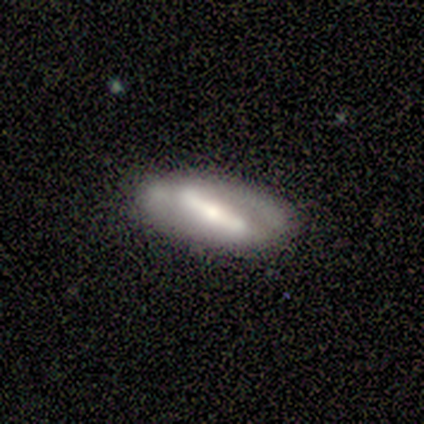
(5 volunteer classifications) Morphology: type=featured or disk (60%); edge-on=no (100%); bar=strong (67%); spiral arms=no (67%); bulge=moderate (67%); merging=none (60%).